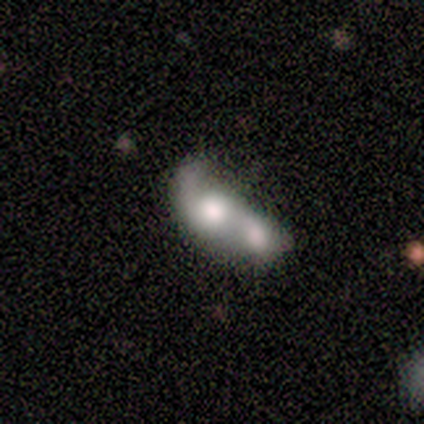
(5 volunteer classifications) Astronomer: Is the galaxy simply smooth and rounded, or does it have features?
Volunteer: smooth — 40%, tied with featured or disk at 40%.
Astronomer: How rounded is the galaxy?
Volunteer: round — 50%, tied with cigar-shaped at 50%.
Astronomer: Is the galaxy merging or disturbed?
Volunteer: merger — 75%.